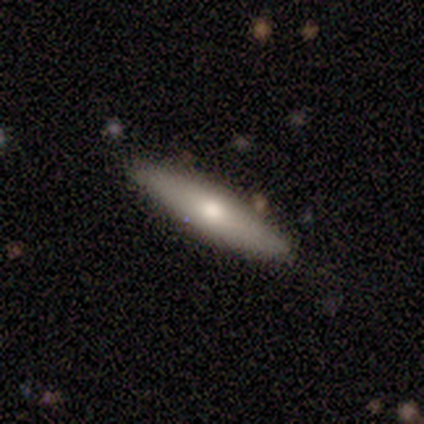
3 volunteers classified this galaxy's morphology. smooth-or-featured: smooth: 67% | featured or disk: 33% | star or artifact: 0%
  how-rounded: in between: 50% (tied) | cigar-shaped: 50% (tied) | round: 0%
  merging: none: 67% | minor disturbance: 33% | major disturbance: 0% | merger: 0%